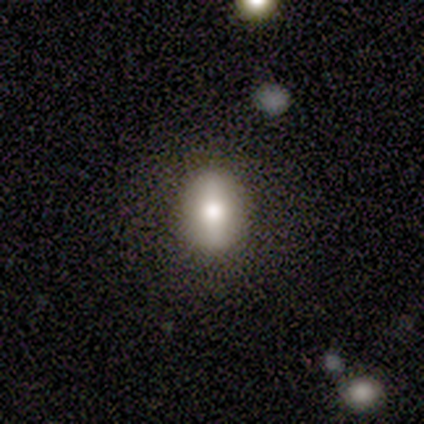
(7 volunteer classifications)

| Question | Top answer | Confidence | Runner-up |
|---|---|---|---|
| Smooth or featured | smooth | 86% | featured or disk (14%) |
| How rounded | round | 50% | tied: in between (50%) |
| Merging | none | 86% | minor disturbance (14%) |